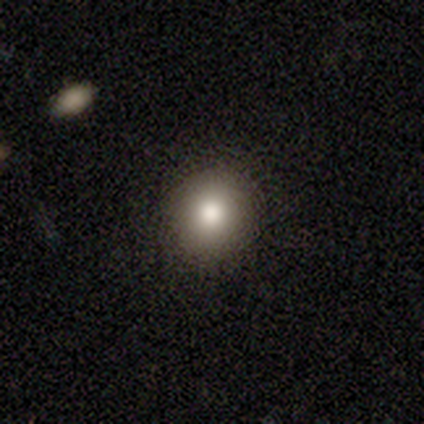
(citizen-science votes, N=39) Smooth or featured? 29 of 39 (74%) said smooth. How rounded? 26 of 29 (90%) said round. Merging? 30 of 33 (91%) said none.